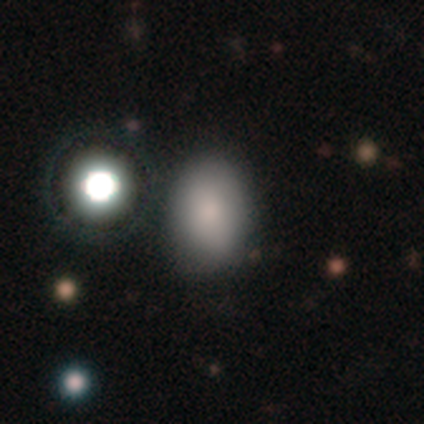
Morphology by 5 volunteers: Smooth or featured? 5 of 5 (100%) said smooth. How rounded? 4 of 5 (80%) said in between. Merging? 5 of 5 (100%) said none.